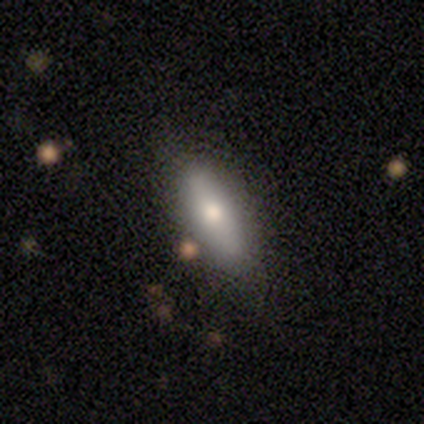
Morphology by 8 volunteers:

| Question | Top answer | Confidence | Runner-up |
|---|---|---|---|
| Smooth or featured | smooth | 62% | star or artifact (25%) |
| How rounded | in between | 80% | cigar-shaped (20%) |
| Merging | none | 100% | — |